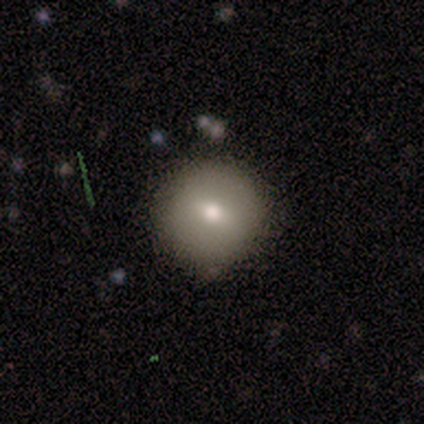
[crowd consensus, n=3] Smooth or featured? smooth (67%)
How rounded? round (100%)
Merging? none (100%)